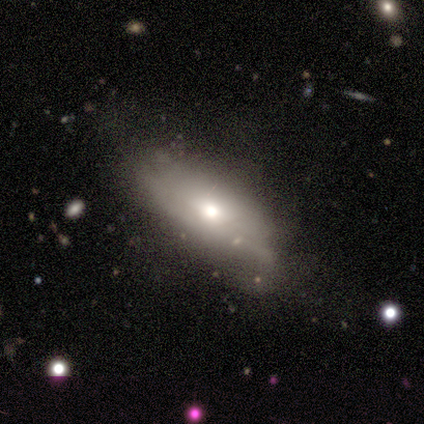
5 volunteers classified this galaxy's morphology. Smooth or featured?
  - smooth: 40% * (tied)
  - featured or disk: 40% * (tied)
  - star or artifact: 20%
How rounded?
  - in between: 50% * (tied)
  - cigar-shaped: 50% * (tied)
  - round: 0%
Merging?
  - none: 50% * (tied)
  - minor disturbance: 50% * (tied)
  - major disturbance: 0%
  - merger: 0%